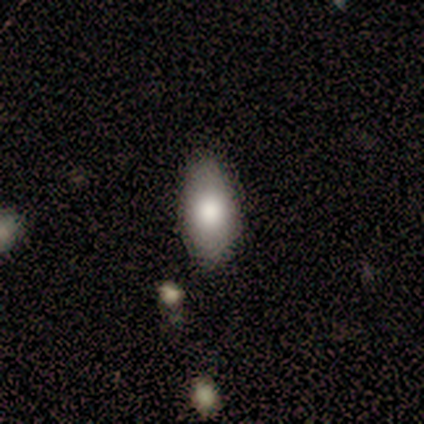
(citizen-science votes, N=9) smooth_or_featured: smooth (p=0.89) [alt: featured or disk p=0.11]
how_rounded: in between (p=0.88) [alt: round p=0.12]
merging: none (p=0.89) [alt: minor disturbance p=0.11]